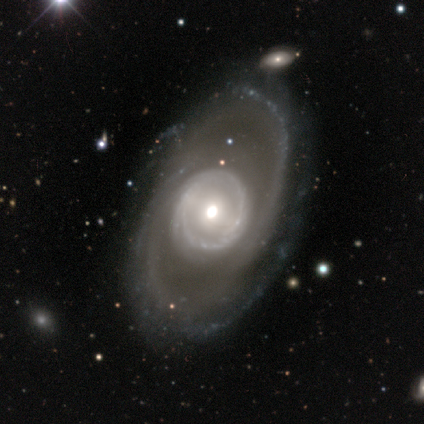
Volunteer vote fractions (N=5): featured or disk 80%, smooth 20%, star or artifact 0%. Down the decision tree: edge-on disk — no (100%); bar — no (75%); spiral arms — yes (100%); spiral arm count — 2 (50%, tied with can't tell); spiral winding — tight (50%); bulge size — moderate (50%, tied with small); merging — none (80%).